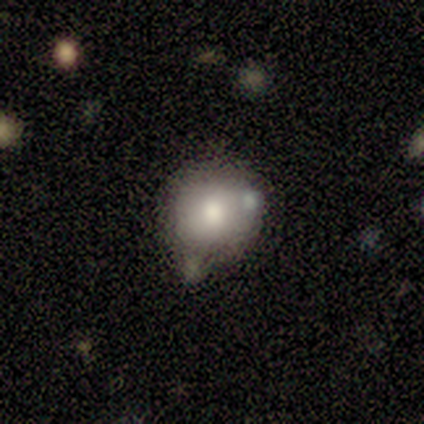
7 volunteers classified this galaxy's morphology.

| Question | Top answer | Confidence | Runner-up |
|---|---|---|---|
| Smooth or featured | smooth | 43% | tied: featured or disk (43%) |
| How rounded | round | 100% | — |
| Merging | none | 33% | tied: minor disturbance (33%), merger (33%) |